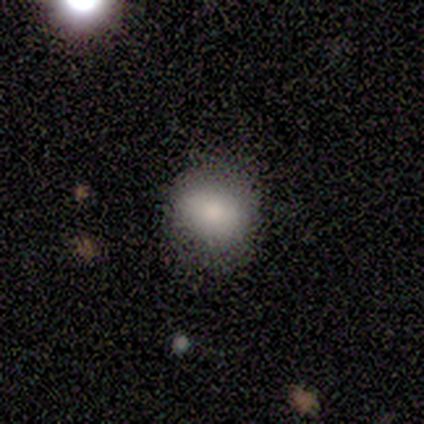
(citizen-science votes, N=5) Q: Smooth or featured?
A: smooth (80%); runner-up: star or artifact (20%)
Q: How rounded?
A: round (75%); runner-up: in between (25%)
Q: Merging?
A: none (50%); tied with: minor disturbance (50%)